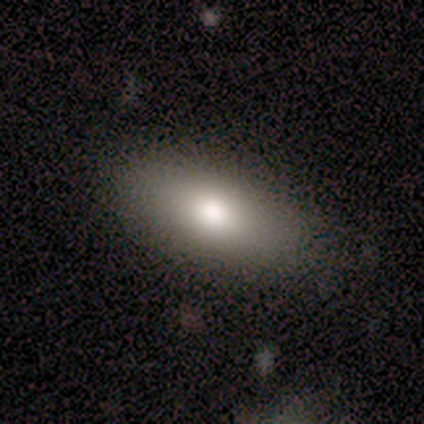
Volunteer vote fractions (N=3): smooth-or-featured: smooth: 100% | featured or disk: 0% | star or artifact: 0%
  how-rounded: in between: 67% | round: 33% | cigar-shaped: 0%
  merging: none: 67% | minor disturbance: 33% | major disturbance: 0% | merger: 0%